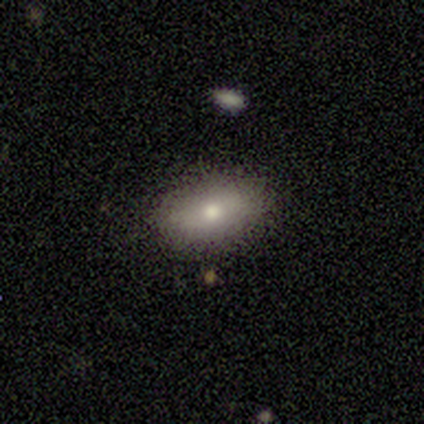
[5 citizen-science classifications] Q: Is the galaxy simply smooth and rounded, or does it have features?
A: smooth — 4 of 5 (80%).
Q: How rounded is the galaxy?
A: in between — 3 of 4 (75%).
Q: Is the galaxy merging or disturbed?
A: none — 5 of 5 (100%).